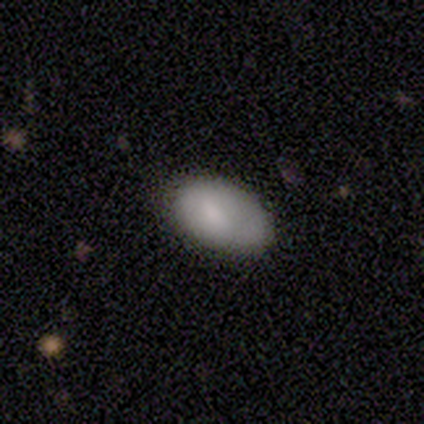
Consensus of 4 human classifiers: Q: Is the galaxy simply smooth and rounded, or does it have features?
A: smooth — 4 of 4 (100%).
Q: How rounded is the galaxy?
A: in between — 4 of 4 (100%).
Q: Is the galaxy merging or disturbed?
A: none — 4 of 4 (100%).